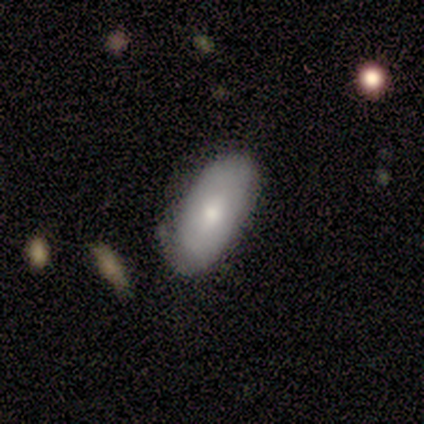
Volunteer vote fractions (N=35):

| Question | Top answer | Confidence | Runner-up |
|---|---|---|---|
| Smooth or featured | smooth | 80% | featured or disk (17%) |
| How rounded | in between | 89% | cigar-shaped (7%) |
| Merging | none | 50% | minor disturbance (35%) |